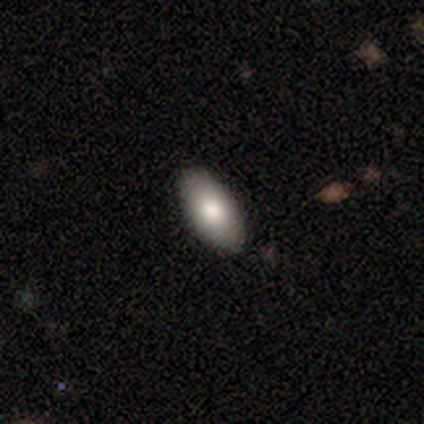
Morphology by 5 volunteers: Smooth or featured? 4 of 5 (80%) said smooth. How rounded? 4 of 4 (100%) said in between. Merging? 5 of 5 (100%) said none.